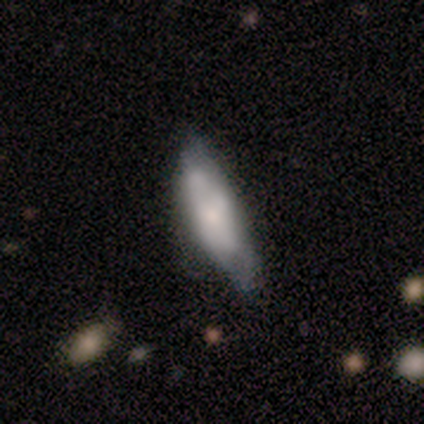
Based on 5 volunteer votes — Morphology: type=smooth (60%); roundness=in between (100%); merging=minor disturbance (60%).